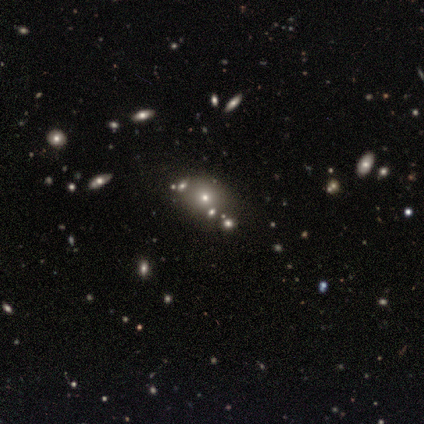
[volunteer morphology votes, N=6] This is clearly a smooth galaxy (83%). How rounded: likely in between (60%). Merging: clearly none (100%).